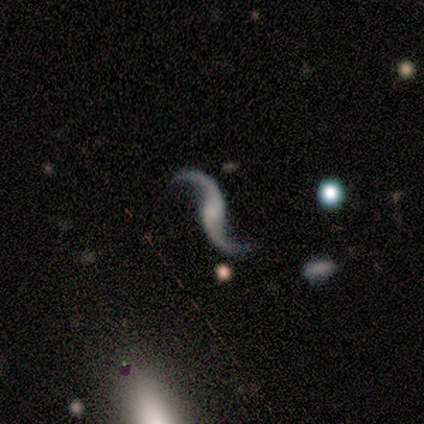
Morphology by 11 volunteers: smooth_or_featured: featured or disk (p=1.00)
disk_edge_on: no (p=1.00)
bar: no (p=0.55) [alt: weak p=0.27]
has_spiral_arms: yes (p=0.91) [alt: no p=0.09]
spiral_winding: loose (p=1.00)
spiral_arm_count: 2 (p=1.00)
bulge_size: small (p=0.45) [tied with: none p=0.45]
merging: none (p=0.91) [alt: major disturbance p=0.09]